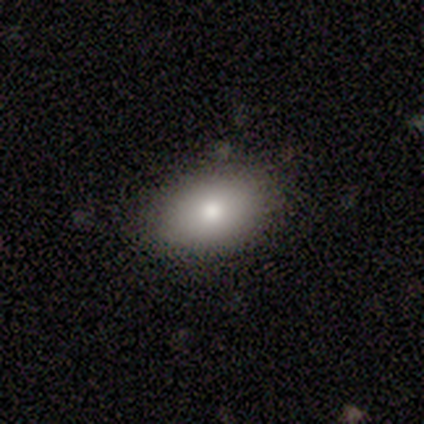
smooth-or-featured: smooth: 80% | star or artifact: 20% | featured or disk: 0%
  how-rounded: in between: 100% | round: 0% | cigar-shaped: 0%
  merging: none: 75% | minor disturbance: 25% | major disturbance: 0% | merger: 0%